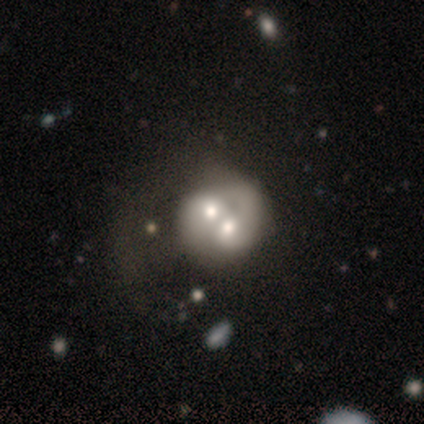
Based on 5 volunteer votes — A featured or disk galaxy (60%) with no bar (100%), no spiral arms (67%) and a moderate central bulge (33%, tied with small and none).

Vote fractions:
- Smooth or featured? featured or disk: 60% / smooth: 40% / star or artifact: 0%
- Edge-on disk? no: 100% / yes: 0%
- Bar? no: 100% / strong: 0% / weak: 0%
- Spiral arms? no: 67% / yes: 33%
- Bulge size? moderate: 33% (tied) / small: 33% (tied) / none: 33% (tied) / dominant: 0% / large: 0%
- Merging? merger: 60% / minor disturbance: 20% / major disturbance: 20% / none: 0%